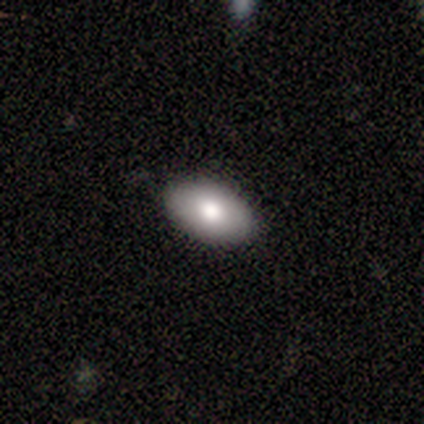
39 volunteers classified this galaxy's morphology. Overall: smooth (85%). How rounded: in between (91%). Merging: none (97%).